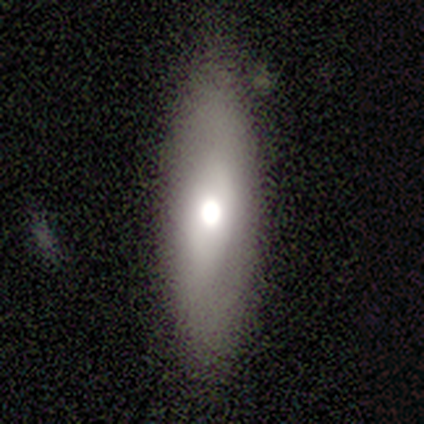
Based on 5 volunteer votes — Smooth or featured? smooth (80%)
How rounded? in between (50%, tied with cigar-shaped)
Merging? none (50%, tied with minor disturbance)